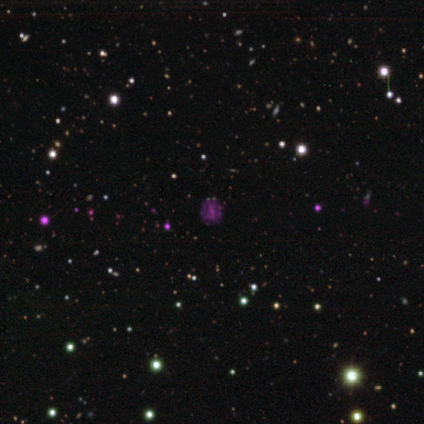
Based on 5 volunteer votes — A star or artifact, not a galaxy (80%).

Vote fractions:
- Smooth or featured? star or artifact: 80% / smooth: 20% / featured or disk: 0%